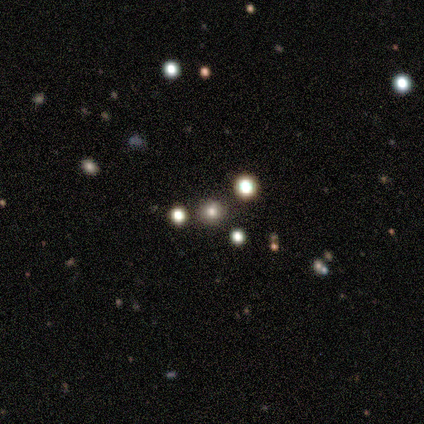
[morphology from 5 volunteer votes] Volunteers were most divided on "smooth or featured": smooth: 60%, featured or disk: 20%, star or artifact: 20%. More confident: how rounded — round (100%); merging — none (100%).